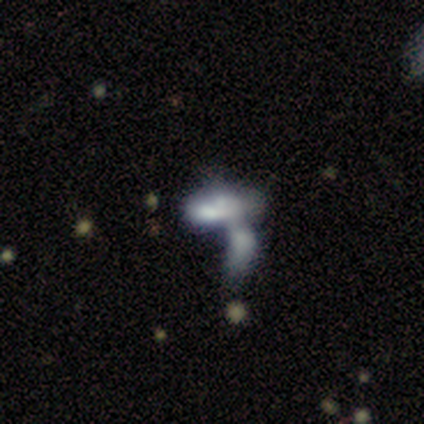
Overall: smooth (67%; star or artifact 33%). How rounded: in between (50%, tied with cigar-shaped). Merging: merger (100%).